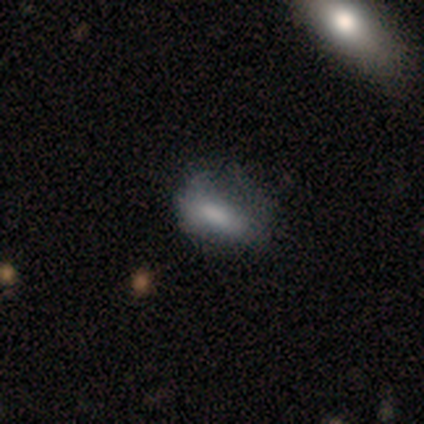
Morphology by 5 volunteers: A star or artifact, not a galaxy (60%).